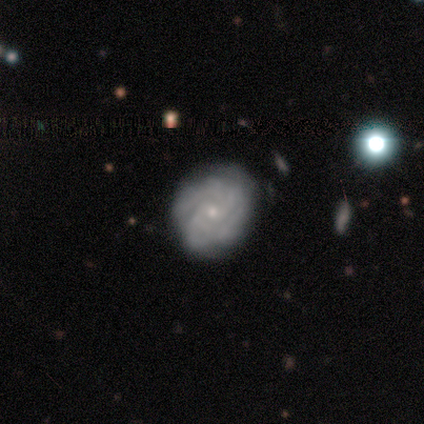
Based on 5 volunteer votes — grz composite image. It shows a featured or disk galaxy (100%) with no bar (100%), 2 (50%) tight (100%) spiral arms (80%) and a small central bulge (100%). Merging: none (40%).